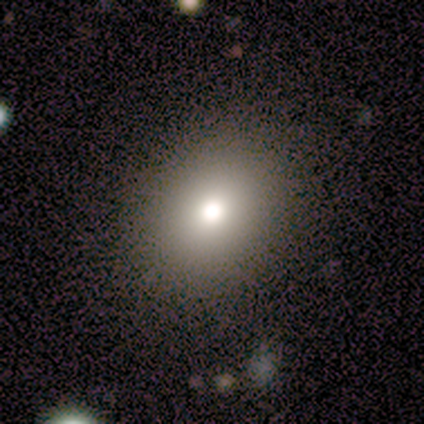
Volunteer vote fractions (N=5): This appears to be a smooth galaxy with no disk features (60%) that is round (67%). Merging: none (75%).